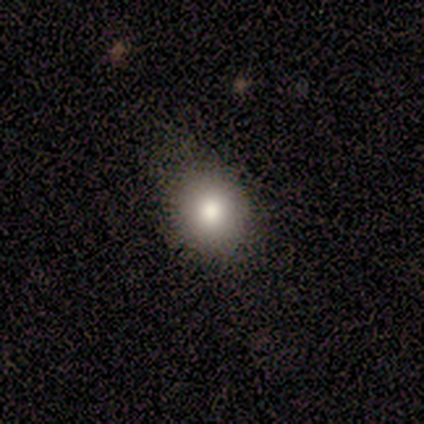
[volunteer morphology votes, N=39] type=smooth (90%); roundness=round (80%); merging=none (54%).